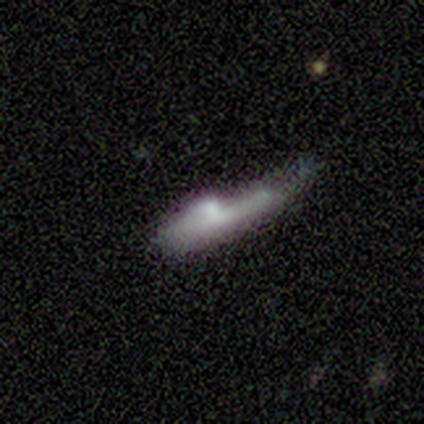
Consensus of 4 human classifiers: Q: Smooth or featured?
A: smooth (75%); runner-up: featured or disk (25%)
Q: How rounded?
A: in between (67%); runner-up: cigar-shaped (33%)
Q: Merging?
A: major disturbance (50%); runner-up: none (25%)